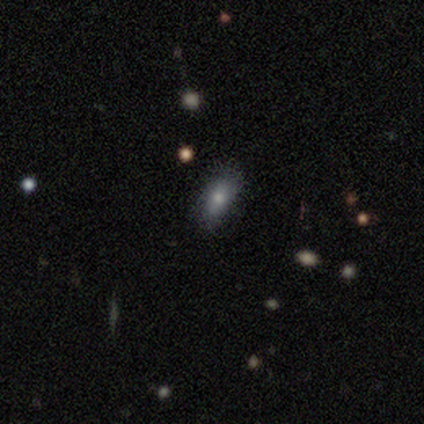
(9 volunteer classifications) Smooth or featured? 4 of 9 (44%, tied with star or artifact) said smooth. How rounded? 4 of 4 (100%) said in between. Merging? 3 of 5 (60%) said none.